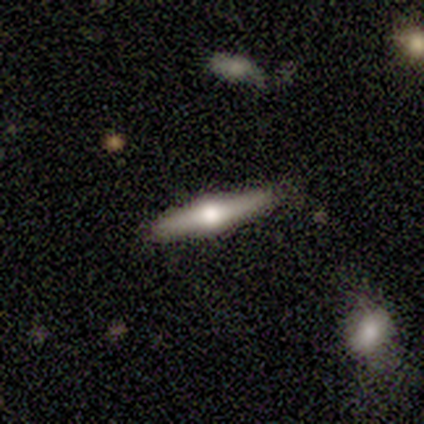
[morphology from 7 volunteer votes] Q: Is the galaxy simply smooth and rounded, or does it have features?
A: featured or disk — 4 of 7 (57%).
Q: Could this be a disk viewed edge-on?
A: yes — 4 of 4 (100%).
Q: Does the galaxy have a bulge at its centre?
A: rounded — 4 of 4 (100%).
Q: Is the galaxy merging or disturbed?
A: none — 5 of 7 (71%).